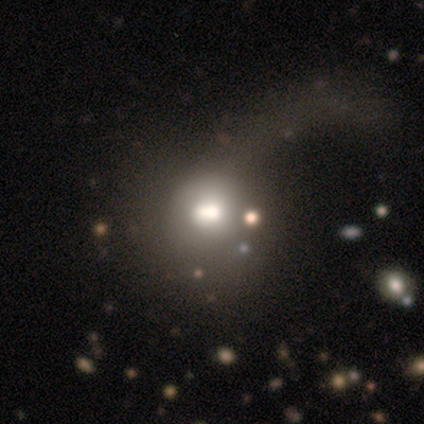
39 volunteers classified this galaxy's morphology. smooth_or_featured: smooth (p=0.56) [alt: featured or disk p=0.23]
how_rounded: round (p=0.68) [alt: in between p=0.27]
merging: major disturbance (p=0.39) [alt: none p=0.26]